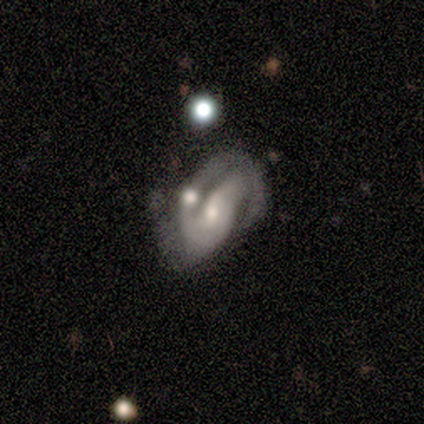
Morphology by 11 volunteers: Volunteers were most divided on "bulge size" (2-way tie): moderate: 50%, small: 50%, dominant: 0%, large: 0%, none: 0%. Remaining: edge-on disk — no (100%); smooth or featured — featured or disk (91%); spiral arms — yes (90%); bar — no (60%); spiral arm count — 2 (56%); merging — merger (45%); spiral winding — medium (44%).